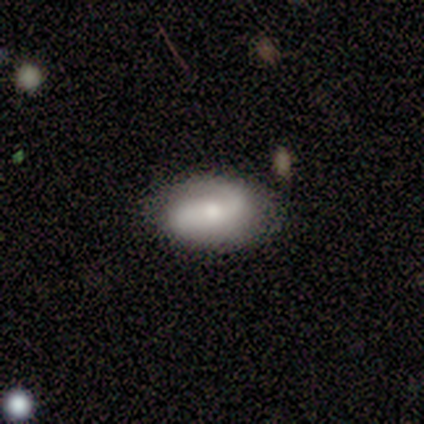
featured or disk 60%, smooth 20%, star or artifact 20%. Down the decision tree: edge-on disk — no (100%); bar — strong (33%, tied with weak and no); spiral arms — yes (100%); spiral arm count — 2 (100%); spiral winding — tight (67%); bulge size — small (67%); merging — none (100%).